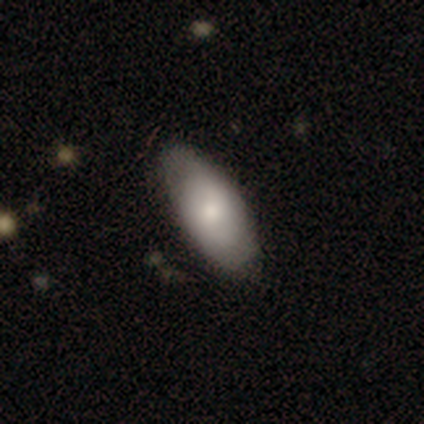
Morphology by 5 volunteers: This is likely a smooth galaxy (60%). How rounded: clearly in between (100%). Merging: likely none (60%).